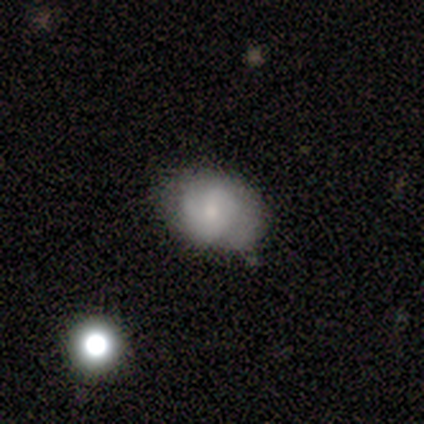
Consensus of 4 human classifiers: Morphology: type=smooth (75%); roundness=in between (100%); merging=none (75%).